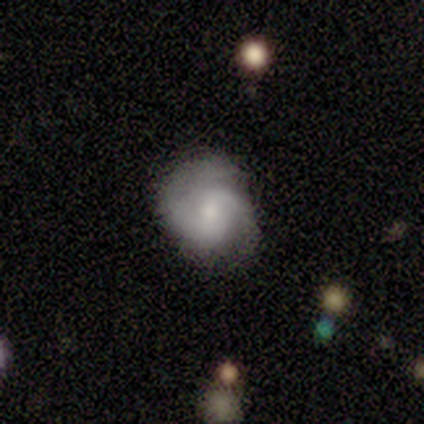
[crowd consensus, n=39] Overall: featured or disk (64%; smooth 28%). Edge-on disk: no (100%). Bar: no (56%; weak 40%). Spiral arms: yes (88%). Spiral arm count: 2 (82%). Spiral winding: medium (55%; tight 36%). Bulge size: small (52%; moderate 40%). Merging: none (69%).